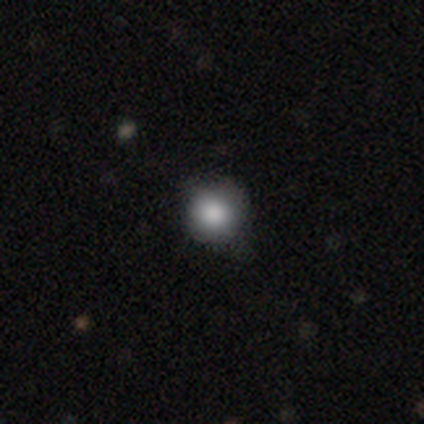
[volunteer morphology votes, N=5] Overall: star or artifact (60%; smooth 40%).